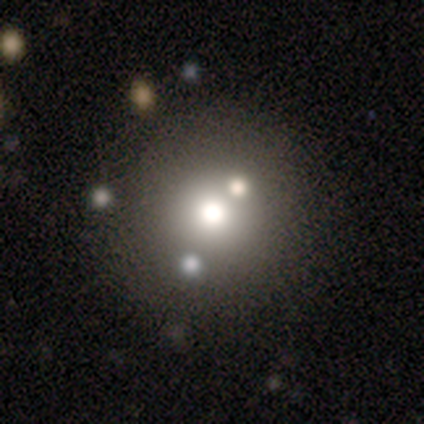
Overall: smooth (80%). How rounded: round (100%). Merging: none (60%; minor disturbance 20%).